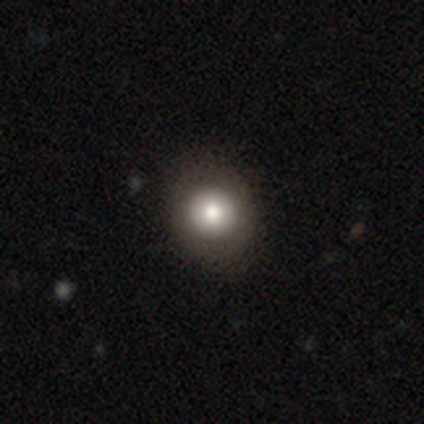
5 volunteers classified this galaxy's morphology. This is likely a smooth galaxy (60%). How rounded: clearly round (100%). Merging: clearly none (100%).